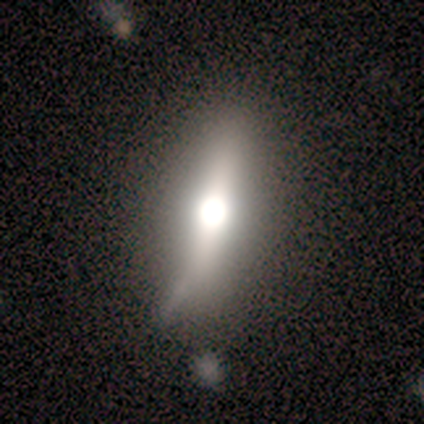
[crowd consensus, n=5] This is marginally a featured or disk galaxy (40%, tied with star or artifact). It is clearly not viewed edge-on (100%). Bar: clearly no (100%). Spiral arm pattern: clearly no (100%). Central bulge: clearly moderate (100%). Merging: likely none (67%).